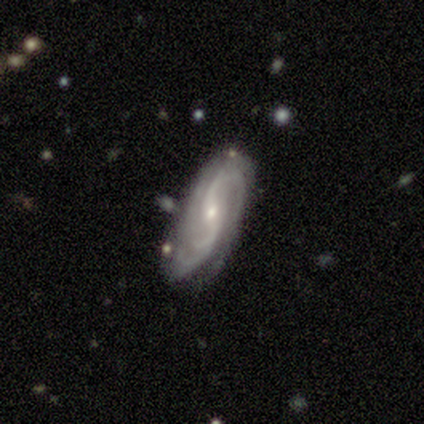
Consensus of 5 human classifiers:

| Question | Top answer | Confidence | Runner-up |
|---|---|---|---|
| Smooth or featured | featured or disk | 100% | — |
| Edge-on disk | no | 100% | — |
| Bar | no | 60% | weak (40%) |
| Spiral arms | yes | 100% | — |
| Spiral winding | medium | 40% | tied: loose (40%) |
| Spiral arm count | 2 | 40% | tied: can't tell (40%) |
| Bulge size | small | 100% | — |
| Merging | none | 80% | merger (20%) |